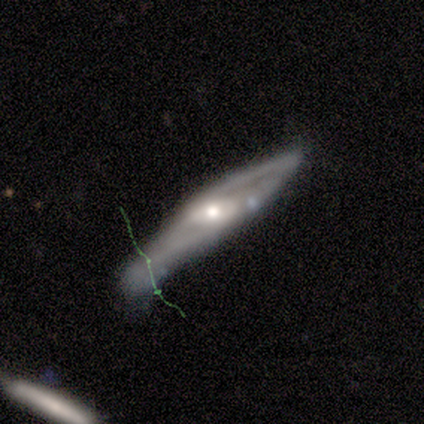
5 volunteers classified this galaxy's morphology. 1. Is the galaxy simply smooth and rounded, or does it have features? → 60% featured or disk, 40% smooth, 0% star or artifact.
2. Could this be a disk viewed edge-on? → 67% yes, 33% no.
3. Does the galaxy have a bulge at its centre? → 100% rounded, 0% boxy, 0% none.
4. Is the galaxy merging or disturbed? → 60% minor disturbance, 40% none, 0% major disturbance, 0% merger.